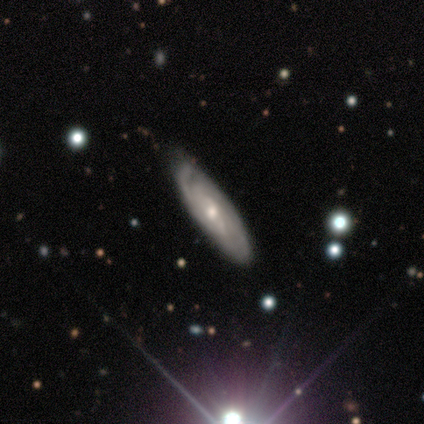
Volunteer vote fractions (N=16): Morphology: type=featured or disk (81%); edge-on=no (85%); bar=weak (55%); spiral arms=yes (82%); winding=tight (89%); arm count=can't tell (67%); bulge=small (55%); merging=none (50%, tied with minor disturbance).